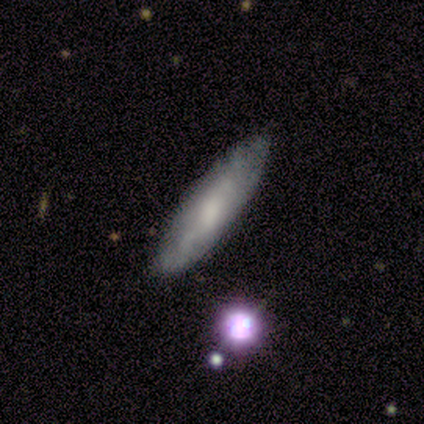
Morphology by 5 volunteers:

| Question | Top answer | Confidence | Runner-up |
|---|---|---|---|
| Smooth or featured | featured or disk | 60% | smooth (40%) |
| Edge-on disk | no | 67% | yes (33%) |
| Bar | no | 100% | — |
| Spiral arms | yes | 50% | tied: no (50%) |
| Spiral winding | tight | 100% | — |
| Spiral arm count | can't tell | 100% | — |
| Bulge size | large | 50% | tied: none (50%) |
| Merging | none | 80% | minor disturbance (20%) |